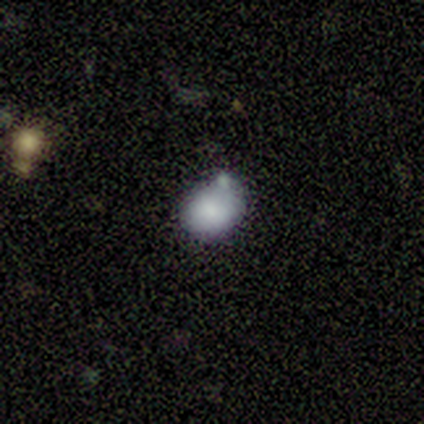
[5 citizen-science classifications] smooth-or-featured: smooth: 100% | featured or disk: 0% | star or artifact: 0%
  how-rounded: in between: 100% | round: 0% | cigar-shaped: 0%
  merging: none: 60% | minor disturbance: 20% | merger: 20% | major disturbance: 0%